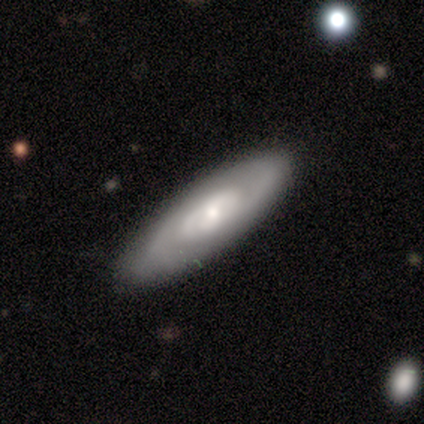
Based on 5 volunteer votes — Smooth or featured?
  - featured or disk: 60% *
  - smooth: 40%
  - star or artifact: 0%
Edge-on disk?
  - no: 67% *
  - yes: 33%
Bar?
  - no: 100% *
  - strong: 0%
  - weak: 0%
Spiral arms?
  - yes: 50% * (tied)
  - no: 50% * (tied)
Spiral winding?
  - medium: 100% *
  - tight: 0%
  - loose: 0%
Spiral arm count?
  - can't tell: 100% *
  - 1: 0%
  - 2: 0%
  - 3: 0%
  - 4: 0%
  - more than 4: 0%
Bulge size?
  - small: 100% *
  - dominant: 0%
  - large: 0%
  - moderate: 0%
  - none: 0%
Merging?
  - none: 80% *
  - minor disturbance: 20%
  - major disturbance: 0%
  - merger: 0%